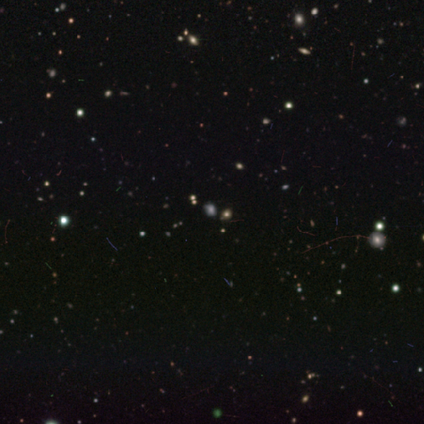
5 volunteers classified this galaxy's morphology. This appears to be a star or artifact, not a galaxy (80%).